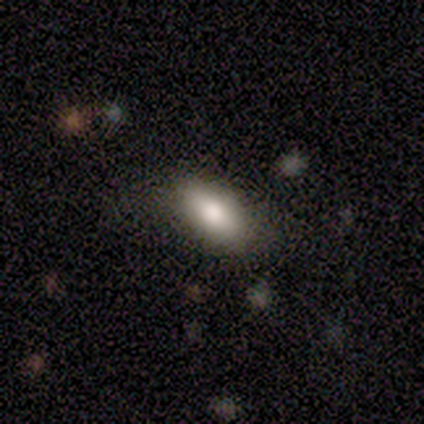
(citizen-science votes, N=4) smooth-or-featured: smooth: 75% | featured or disk: 25% | star or artifact: 0%
  how-rounded: in between: 100% | round: 0% | cigar-shaped: 0%
  merging: none: 50% | minor disturbance: 25% | major disturbance: 25% | merger: 0%